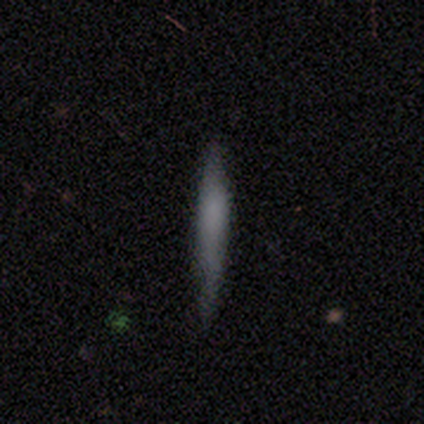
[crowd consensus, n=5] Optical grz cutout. It shows a smooth galaxy with no disk features (80%) that is cigar-shaped (100%). Merging: none (80%).